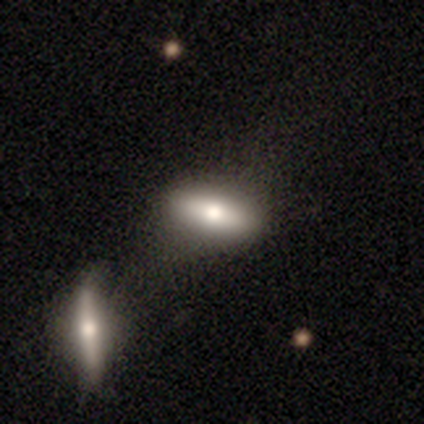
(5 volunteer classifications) smooth-or-featured: smooth: 100% | featured or disk: 0% | star or artifact: 0%
  how-rounded: in between: 80% | cigar-shaped: 20% | round: 0%
  merging: none: 40% (tied) | minor disturbance: 40% (tied) | major disturbance: 20% | merger: 0%